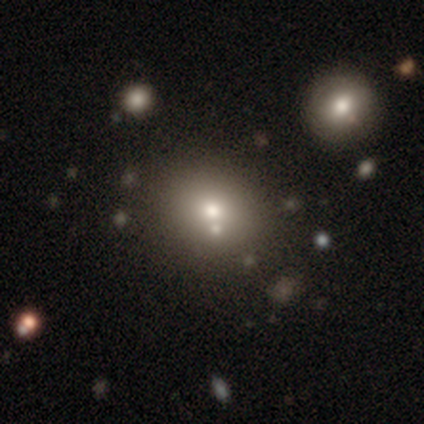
smooth_or_featured: smooth (p=0.63) [alt: featured or disk p=0.20]
how_rounded: round (p=0.71) [alt: in between p=0.29]
merging: none (p=0.69) [alt: minor disturbance p=0.17]